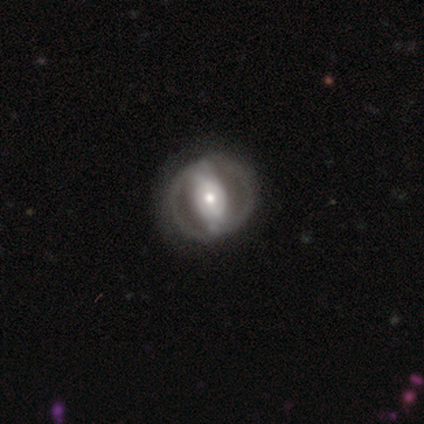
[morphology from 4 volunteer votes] featured or disk 75%, smooth 25%, star or artifact 0%. Down the decision tree: edge-on disk — no (100%); bar — strong (67%); spiral arms — yes (67%); spiral arm count — 2 (50%, tied with can't tell); spiral winding — tight (50%, tied with loose); bulge size — moderate (67%); merging — none (50%, tied with major disturbance).